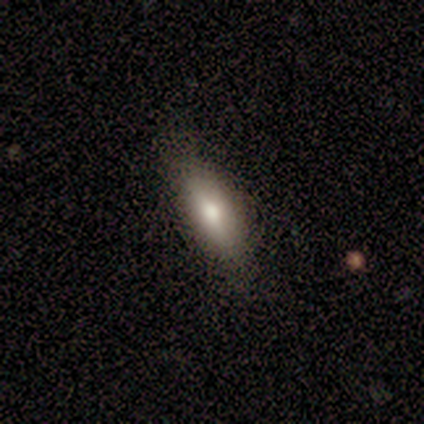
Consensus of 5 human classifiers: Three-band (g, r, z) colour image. It shows a featured or disk galaxy (60%) with a weak bar (50%, tied with no), no spiral arms (100%) and a moderate central bulge (100%). Merging: none (50%, tied with minor disturbance).